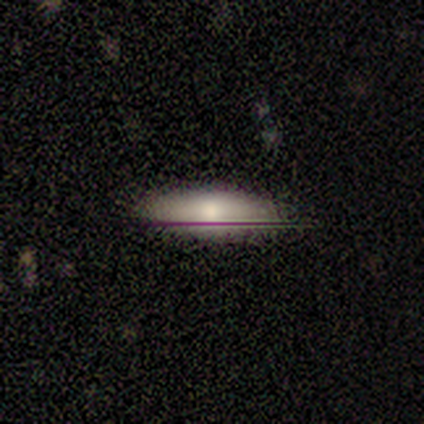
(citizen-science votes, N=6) Smooth or featured: smooth — 83% (featured or disk — 17%)
How rounded: in between — 80% (cigar-shaped — 20%)
Merging: none — 50% (tied with minor disturbance — 50%)